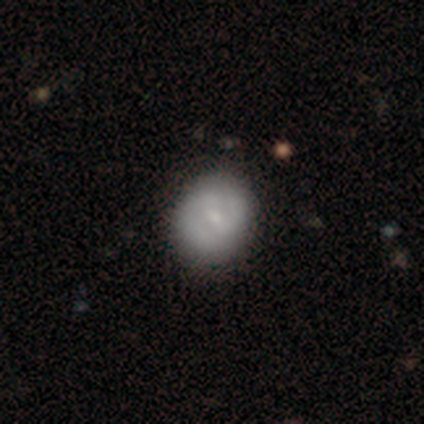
A smooth galaxy with no disk features (51%) that is round (55%). Merging: none (78%).